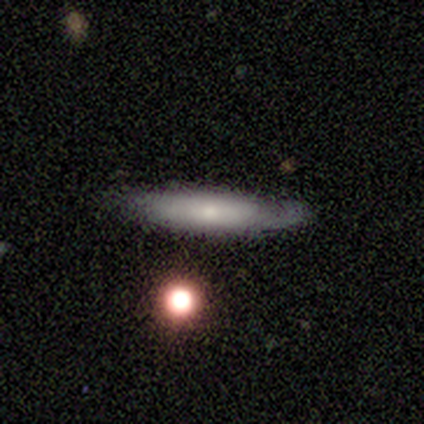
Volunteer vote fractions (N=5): This is clearly a smooth galaxy (80%). How rounded: likely cigar-shaped (75%). Merging: likely none (75%).